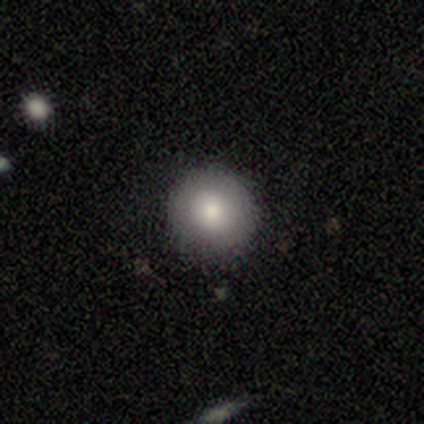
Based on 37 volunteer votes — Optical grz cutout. It shows a smooth galaxy with no disk features (86%) that is round (100%). Merging: none (92%).